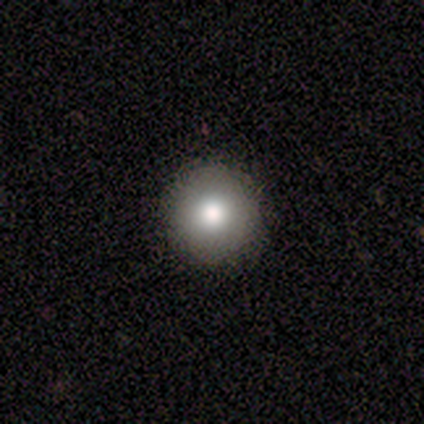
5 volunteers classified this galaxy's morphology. This appears to be a smooth galaxy with no disk features (100%) that is round (100%). Merging: none (80%).